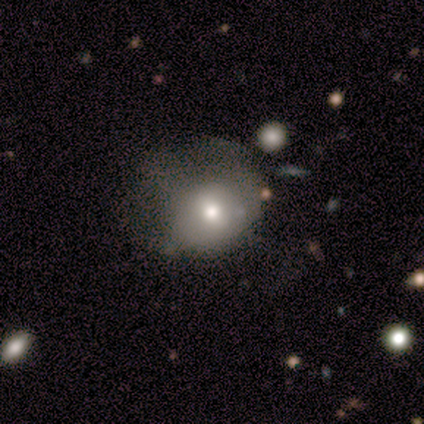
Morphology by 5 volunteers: Smooth or featured? featured or disk (80%)
Edge-on disk? no (100%)
Bar? no (50%)
Spiral arms? no (100%)
Bulge size? moderate (75%)
Merging? minor disturbance (40%)